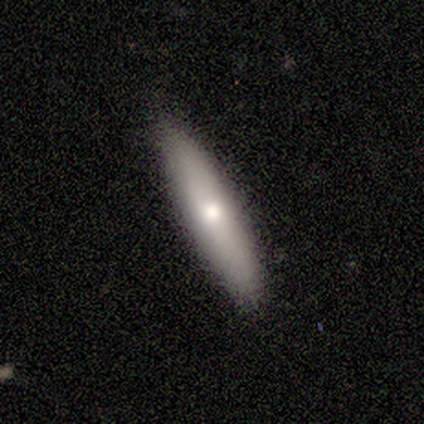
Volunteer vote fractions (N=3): This is likely a smooth galaxy (67%). How rounded: clearly cigar-shaped (100%). Merging: clearly none (100%).